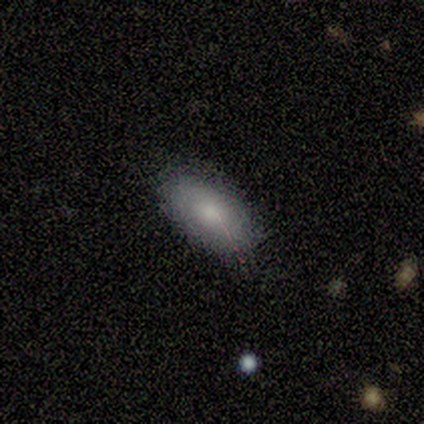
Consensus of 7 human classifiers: Smooth or featured: smooth — 86% (featured or disk — 14%)
How rounded: in between — 100%
Merging: none — 86% (minor disturbance — 14%)